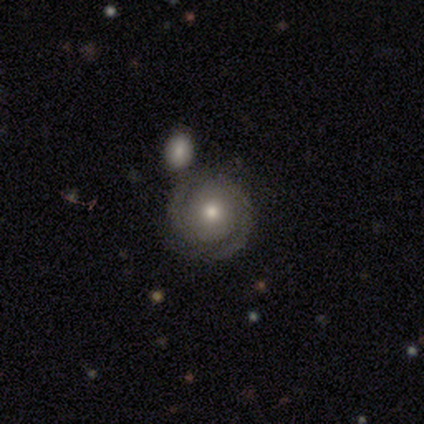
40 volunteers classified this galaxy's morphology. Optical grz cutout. It shows a featured or disk galaxy (72%) with no bar (93%), 2 (75%) tight (67%) spiral arms (83%) and a moderate central bulge (72%). Merging: none (74%).